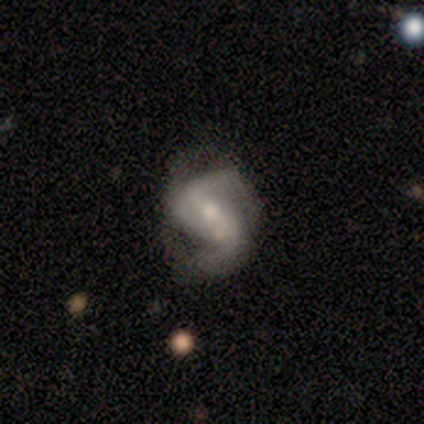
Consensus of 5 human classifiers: This appears to be a featured or disk galaxy (80%) with a strong bar (50%), 2 (75%) loose (50%) spiral arms (100%) and a moderate central bulge (50%, tied with small). Merging: none (25%, tied with minor disturbance, major disturbance and merger).